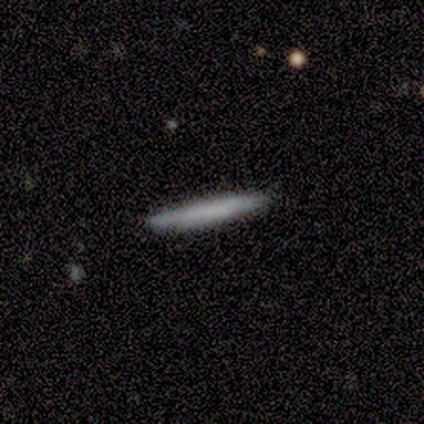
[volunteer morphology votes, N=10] Smooth or featured: smooth — 60% (featured or disk — 30%)
How rounded: cigar-shaped — 100%
Merging: none — 89% (minor disturbance — 11%)